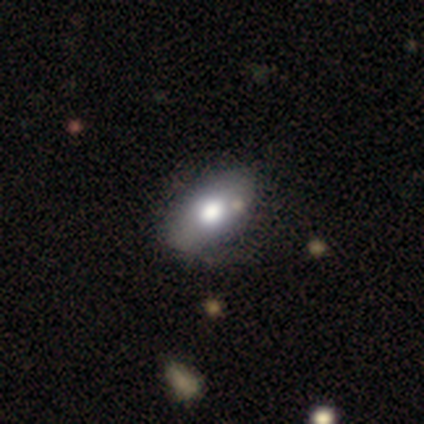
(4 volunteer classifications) smooth-or-featured: smooth: 50% (tied) | featured or disk: 50% (tied) | star or artifact: 0%
  how-rounded: in between: 50% (tied) | cigar-shaped: 50% (tied) | round: 0%
  merging: none: 75% | major disturbance: 25% | minor disturbance: 0% | merger: 0%